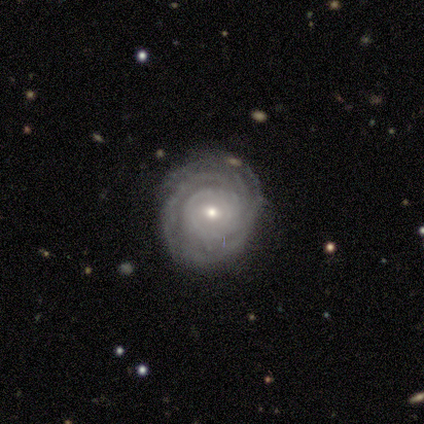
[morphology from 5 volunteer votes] smooth-or-featured: featured or disk: 80% | smooth: 20% | star or artifact: 0%
  disk-edge-on: no: 100% | yes: 0%
    bar: no: 75% | weak: 25% | strong: 0%
    has-spiral-arms: yes: 100% | no: 0%
      spiral-winding: tight: 100% | medium: 0% | loose: 0%
      spiral-arm-count: 3: 50% | 2: 25% | can't tell: 25% | 1: 0% | 4: 0% | more than 4: 0%
    bulge-size: moderate: 75% | small: 25% | dominant: 0% | large: 0% | none: 0%
  merging: none: 80% | minor disturbance: 20% | major disturbance: 0% | merger: 0%